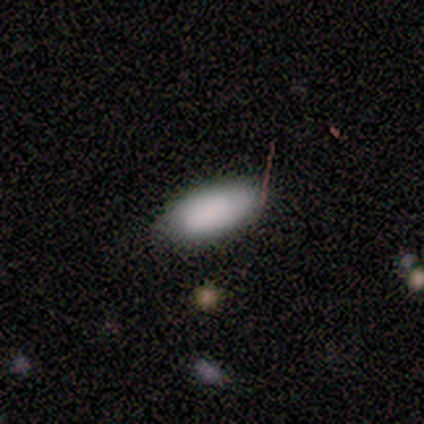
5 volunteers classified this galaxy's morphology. Volunteers were most divided on "merging": none: 80%, minor disturbance: 20%, major disturbance: 0%, merger: 0%. More confident: smooth or featured — smooth (100%); how rounded — in between (100%).